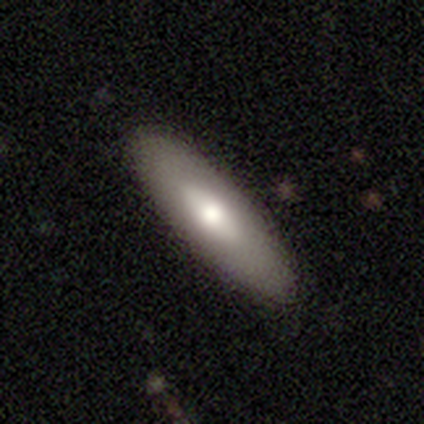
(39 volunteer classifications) Smooth or featured: smooth — 72% (featured or disk — 21%)
How rounded: in between — 50% (tied with cigar-shaped — 50%)
Merging: none — 83% (minor disturbance — 14%)